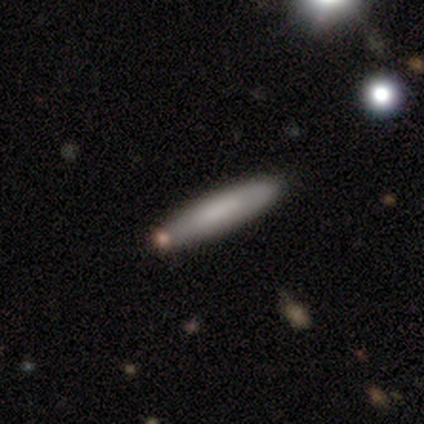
smooth-or-featured: smooth: 80% | featured or disk: 20% | star or artifact: 0%
  how-rounded: cigar-shaped: 75% | in between: 25% | round: 0%
  merging: none: 90% | minor disturbance: 10% | major disturbance: 0% | merger: 0%